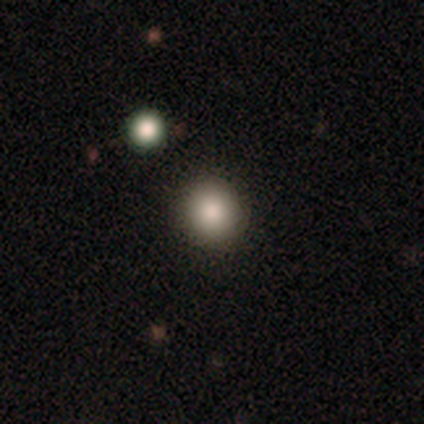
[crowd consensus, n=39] Q: Smooth or featured?
A: smooth (90%); runner-up: featured or disk (5%)
Q: How rounded?
A: round (97%); runner-up: in between (3%)
Q: Merging?
A: none (89%); runner-up: merger (8%)